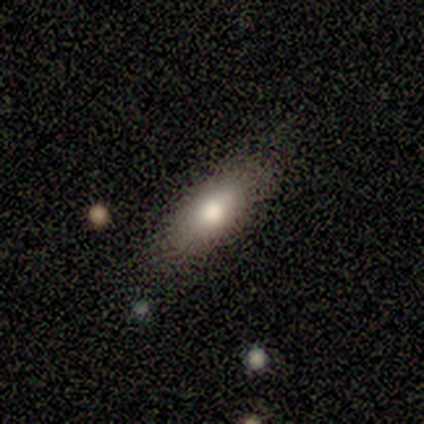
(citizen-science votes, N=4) Q: Smooth or featured?
A: smooth (75%); runner-up: featured or disk (25%)
Q: How rounded?
A: in between (100%)
Q: Merging?
A: none (75%); runner-up: major disturbance (25%)